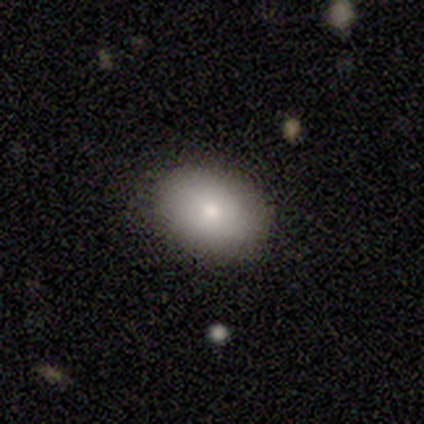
smooth 100%, featured or disk 0%, star or artifact 0%. Down the decision tree: how rounded — in between (60%); merging — none (100%).